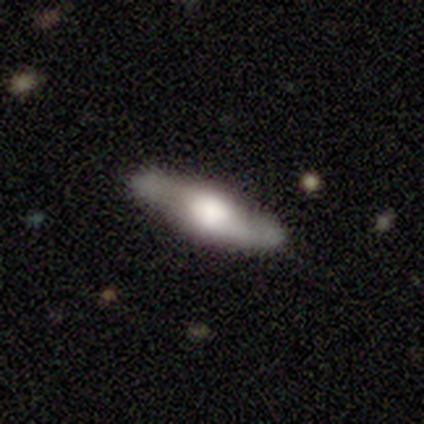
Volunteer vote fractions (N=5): This appears to be a smooth galaxy with no disk features (60%) that is in between round and cigar-shaped (67%). Merging: none (80%).